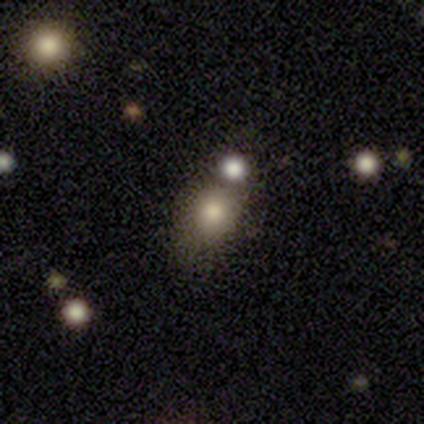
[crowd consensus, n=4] Smooth or featured? smooth (100%)
How rounded? round (75%)
Merging? merger (50%)